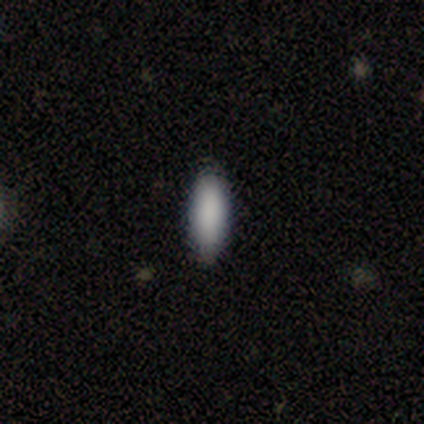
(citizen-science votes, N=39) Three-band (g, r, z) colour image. It shows a smooth galaxy with no disk features (92%) that is in between round and cigar-shaped (53%). Merging: none (92%).